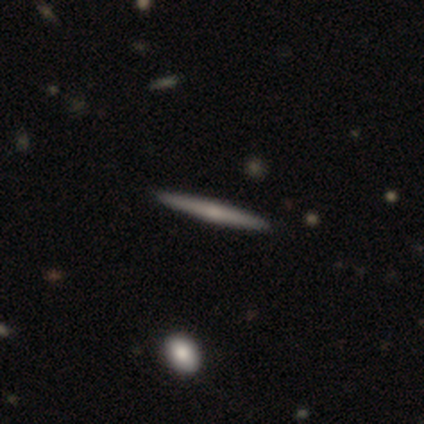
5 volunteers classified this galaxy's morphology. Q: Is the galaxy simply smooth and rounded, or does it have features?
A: featured or disk — 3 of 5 (60%).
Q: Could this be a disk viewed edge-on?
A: yes — 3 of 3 (100%).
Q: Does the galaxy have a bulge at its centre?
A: none — 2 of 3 (67%).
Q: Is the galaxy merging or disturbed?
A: none — 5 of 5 (100%).